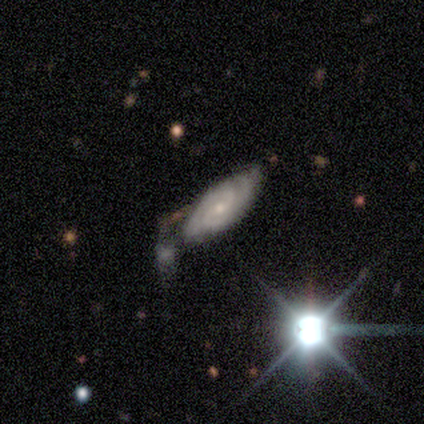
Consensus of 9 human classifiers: This appears to be a star or artifact, not a galaxy (56%).